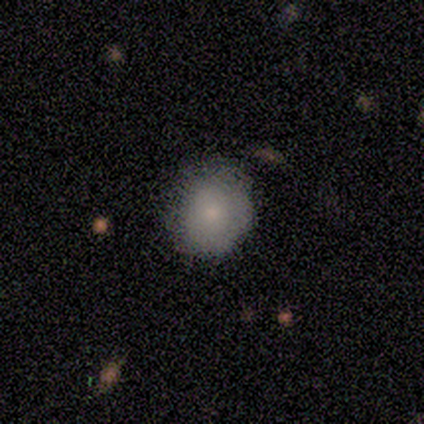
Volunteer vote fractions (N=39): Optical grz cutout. It shows a smooth galaxy with no disk features (90%) that is round (83%). Merging: none (66%).